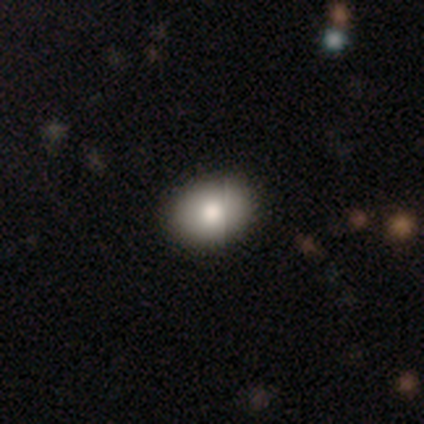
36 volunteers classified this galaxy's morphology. This appears to be a smooth galaxy with no disk features (89%) that is in between round and cigar-shaped (72%). Merging: none (56%).